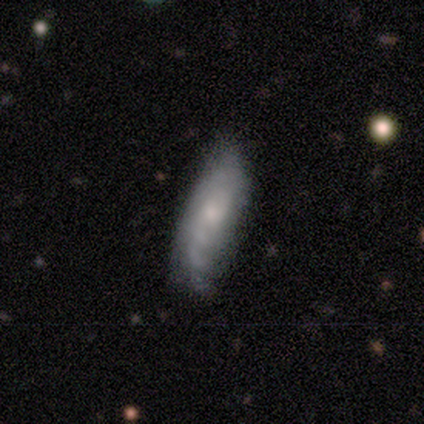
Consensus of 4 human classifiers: smooth 50%, featured or disk 25%, star or artifact 25%. Down the decision tree: how rounded — in between (100%); merging — minor disturbance (67%).